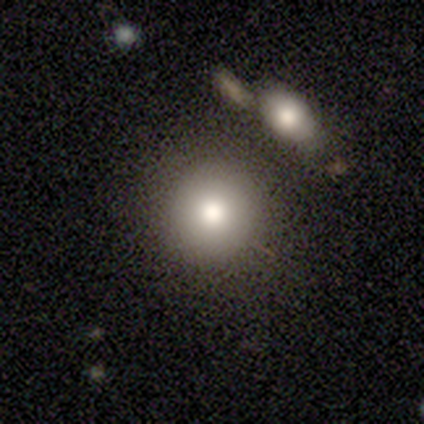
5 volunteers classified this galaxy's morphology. This is likely a smooth galaxy (60%). How rounded: clearly round (100%). Merging: likely none (60%).